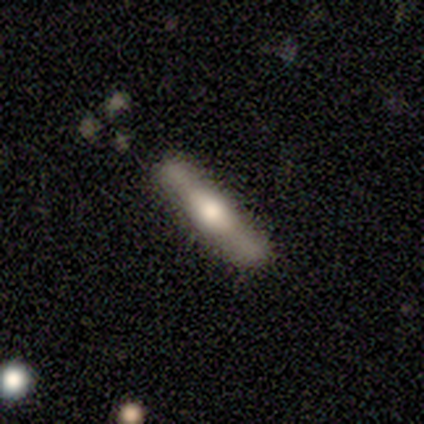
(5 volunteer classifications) A featured or disk galaxy (60%) viewed edge-on (100%) with a rounded central bulge (67%).

Vote fractions:
- Smooth or featured? featured or disk: 60% / smooth: 40% / star or artifact: 0%
- Edge-on disk? yes: 100% / no: 0%
- Edge-on bulge? rounded: 67% / none: 33% / boxy: 0%
- Merging? none: 100% / minor disturbance: 0% / major disturbance: 0% / merger: 0%